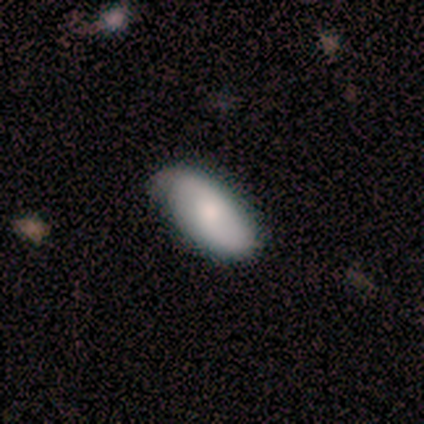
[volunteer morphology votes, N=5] type=featured or disk (60%); edge-on=no (100%); bar=no (67%); spiral arms=yes (67%); winding=tight (50%, tied with medium); arm count=2 (50%, tied with can't tell); bulge=moderate (33%, tied with small and none); merging=none (100%).